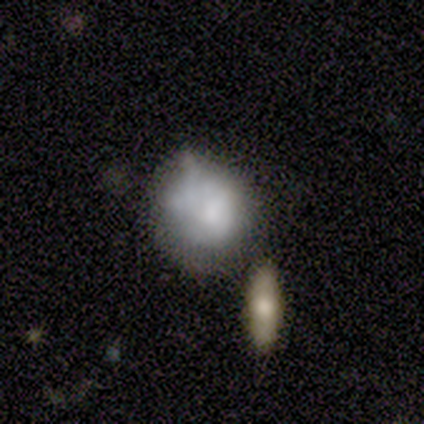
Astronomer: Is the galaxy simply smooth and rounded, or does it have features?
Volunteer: smooth — 80%.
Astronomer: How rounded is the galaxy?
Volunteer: round — 75%.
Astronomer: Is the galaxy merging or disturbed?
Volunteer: minor disturbance — 60%.